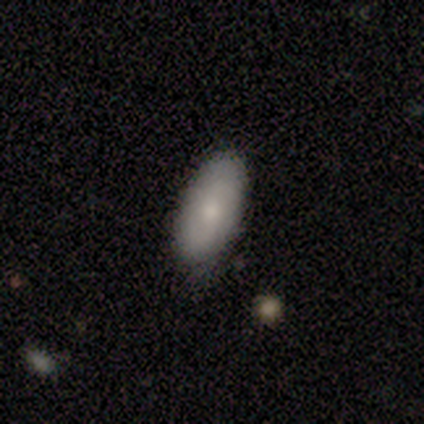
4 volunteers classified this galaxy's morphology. This appears to be a smooth galaxy with no disk features (100%) that is in between round and cigar-shaped (100%). Merging: none (75%).